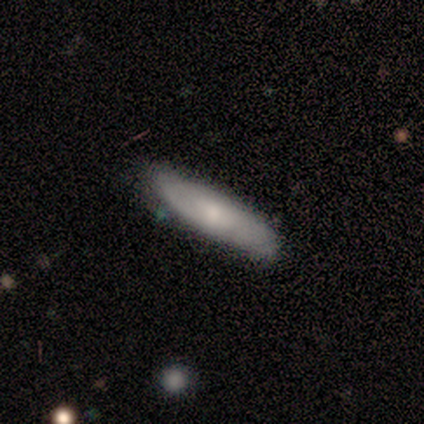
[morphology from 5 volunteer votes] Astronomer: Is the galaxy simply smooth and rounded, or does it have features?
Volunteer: smooth — 60%.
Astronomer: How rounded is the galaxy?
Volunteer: cigar-shaped — 67%.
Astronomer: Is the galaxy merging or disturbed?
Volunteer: none — 100%.